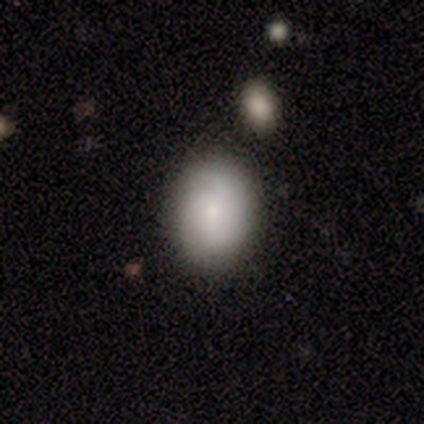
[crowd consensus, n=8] A smooth galaxy with no disk features (50%, tied with featured or disk) that is in between round and cigar-shaped (75%). Merging: none (75%).